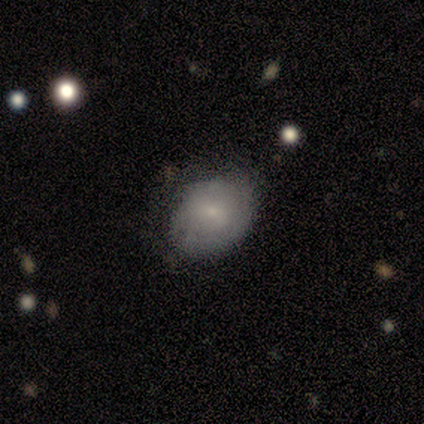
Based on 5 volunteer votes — smooth_or_featured: smooth (p=0.80) [alt: star or artifact p=0.20]
how_rounded: round (p=1.00)
merging: none (p=0.75) [alt: major disturbance p=0.25]